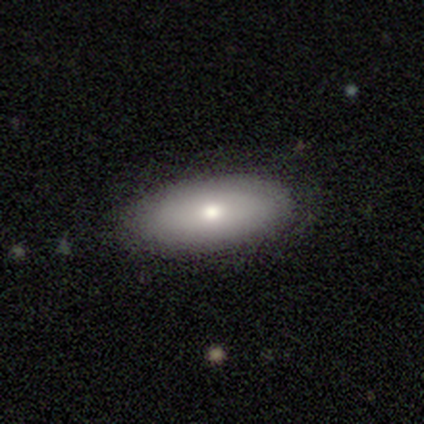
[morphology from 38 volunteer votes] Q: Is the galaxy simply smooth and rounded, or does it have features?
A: smooth — 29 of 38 (76%).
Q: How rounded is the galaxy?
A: in between — 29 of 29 (100%).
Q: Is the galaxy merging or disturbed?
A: none — 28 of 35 (80%).